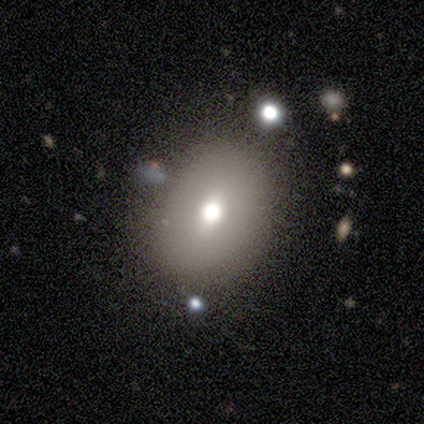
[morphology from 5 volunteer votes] This is marginally a smooth galaxy (40%, tied with star or artifact). How rounded: clearly in between (100%). Merging: clearly none (100%).